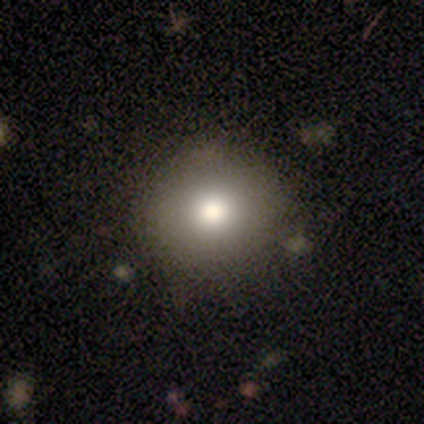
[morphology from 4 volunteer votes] type=smooth (75%); roundness=round (100%); merging=none (50%, tied with minor disturbance).